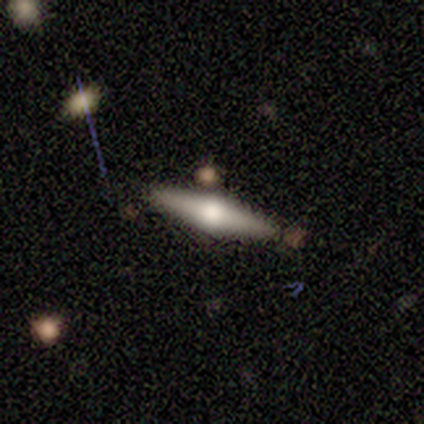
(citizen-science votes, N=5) Overall: featured or disk (60%; smooth 40%). Edge-on disk: yes (100%). Edge-on bulge: rounded (100%). Merging: none (100%).